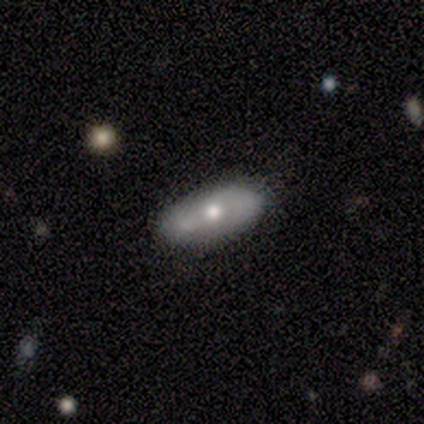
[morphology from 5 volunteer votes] Overall: smooth (60%; featured or disk 40%). How rounded: in between (100%). Merging: none (100%).